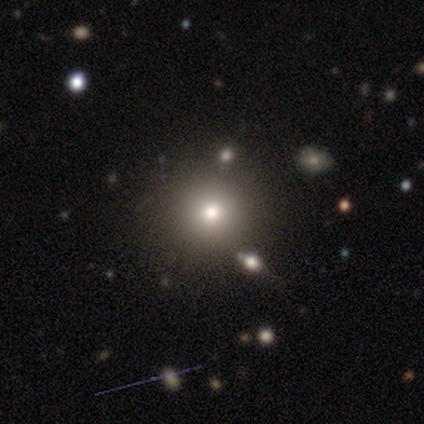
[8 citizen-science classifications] Smooth or featured?
  - smooth: 62% *
  - star or artifact: 38%
  - featured or disk: 0%
How rounded?
  - round: 100% *
  - in between: 0%
  - cigar-shaped: 0%
Merging?
  - none: 80% *
  - minor disturbance: 20%
  - major disturbance: 0%
  - merger: 0%